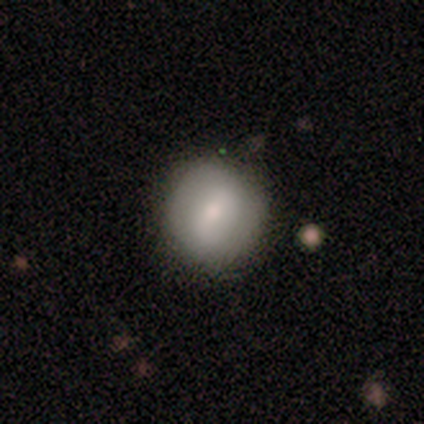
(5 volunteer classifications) This appears to be a smooth galaxy with no disk features (60%) that is round (100%). Merging: none (75%).